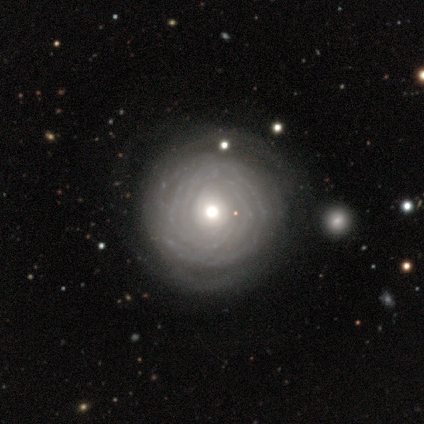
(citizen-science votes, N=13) Smooth or featured: featured or disk — 85% (smooth — 8%)
Edge-on disk: no — 100%
Bar: no — 100%
Spiral arms: no — 55% (yes — 45%)
Bulge size: moderate — 73% (small — 27%)
Merging: none — 83% (minor disturbance — 8%)